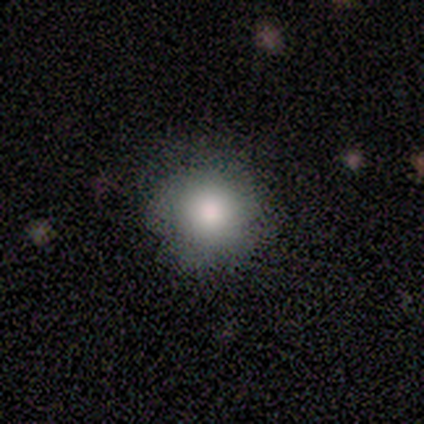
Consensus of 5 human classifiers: Morphology: type=smooth (60%); roundness=round (100%); merging=minor disturbance (75%).